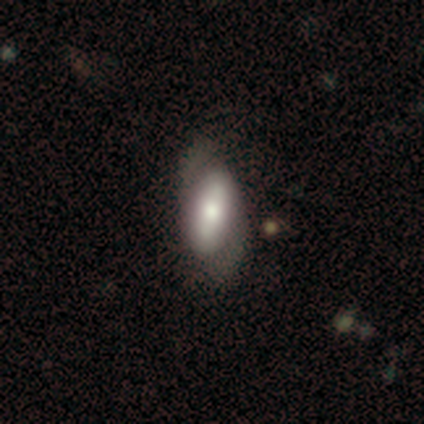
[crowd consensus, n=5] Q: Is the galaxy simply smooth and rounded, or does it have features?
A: smooth — 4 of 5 (80%).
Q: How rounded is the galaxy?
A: in between — 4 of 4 (100%).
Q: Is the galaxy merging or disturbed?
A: none — 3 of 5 (60%).